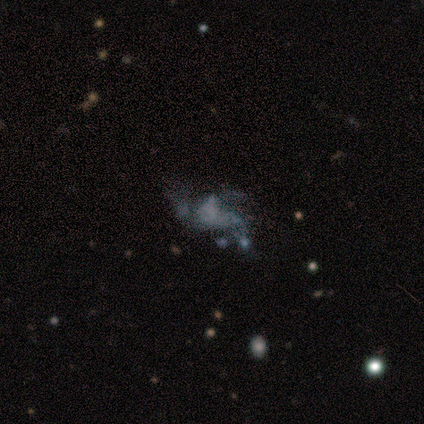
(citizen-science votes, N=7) Overall: star or artifact (57%; featured or disk 29%).